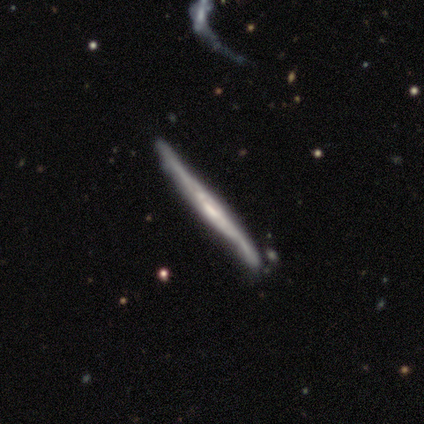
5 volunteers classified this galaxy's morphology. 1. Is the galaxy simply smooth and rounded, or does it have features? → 80% featured or disk, 20% star or artifact, 0% smooth.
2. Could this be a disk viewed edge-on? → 100% yes, 0% no.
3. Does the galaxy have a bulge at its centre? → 100% none, 0% boxy, 0% rounded.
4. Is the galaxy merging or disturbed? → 100% none, 0% minor disturbance, 0% major disturbance, 0% merger.